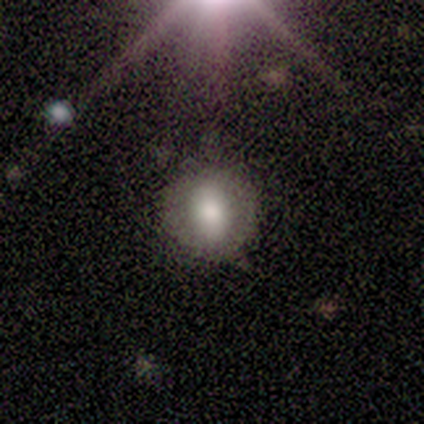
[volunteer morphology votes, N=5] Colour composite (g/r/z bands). It shows a smooth galaxy with no disk features (80%) that is in between round and cigar-shaped (75%). Merging: none (100%).